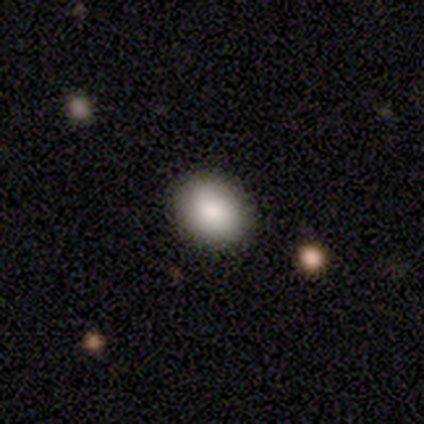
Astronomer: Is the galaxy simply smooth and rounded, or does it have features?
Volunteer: smooth — 92%.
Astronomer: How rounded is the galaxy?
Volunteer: in between — 55% (runner-up: round, 44%).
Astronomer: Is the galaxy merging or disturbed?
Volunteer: none — 47%.